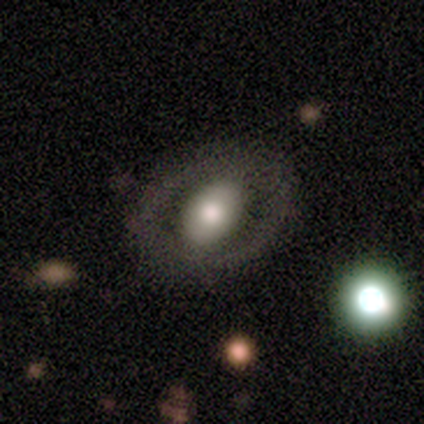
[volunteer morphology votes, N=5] smooth 60%, featured or disk 40%, star or artifact 0%. Down the decision tree: how rounded — in between (67%); merging — none (100%).